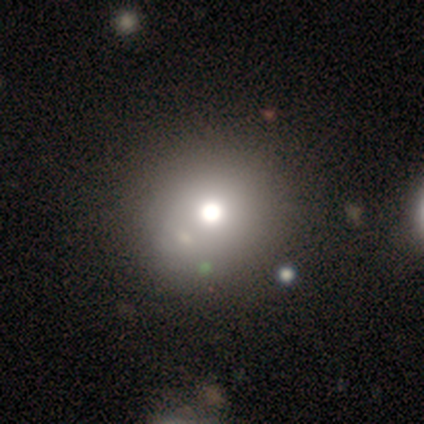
Smooth or featured?
  - featured or disk: 40% * (tied)
  - star or artifact: 40% * (tied)
  - smooth: 20%
Edge-on disk?
  - no: 100% *
  - yes: 0%
Bar?
  - no: 100% *
  - strong: 0%
  - weak: 0%
Spiral arms?
  - no: 100% *
  - yes: 0%
Bulge size?
  - moderate: 100% *
  - dominant: 0%
  - large: 0%
  - small: 0%
  - none: 0%
Merging?
  - none: 67% *
  - minor disturbance: 33%
  - major disturbance: 0%
  - merger: 0%